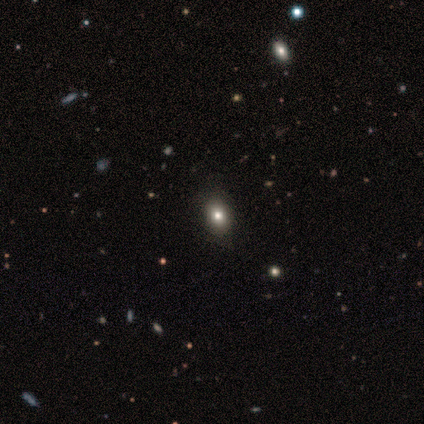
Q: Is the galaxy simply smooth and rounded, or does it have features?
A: smooth — 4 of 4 (100%).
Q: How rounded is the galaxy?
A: in between — 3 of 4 (75%).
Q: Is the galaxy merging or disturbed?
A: none — 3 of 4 (75%).